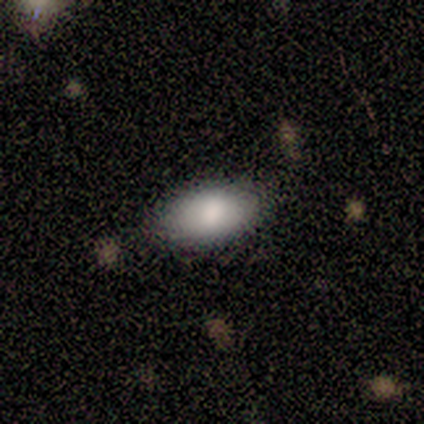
Overall: smooth (71%). How rounded: in between (80%). Merging: none (67%).